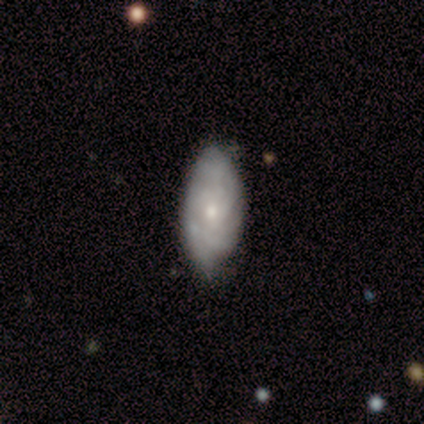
Overall: smooth (50%, tied with star or artifact). How rounded: in between (100%). Merging: none (50%, tied with minor disturbance).